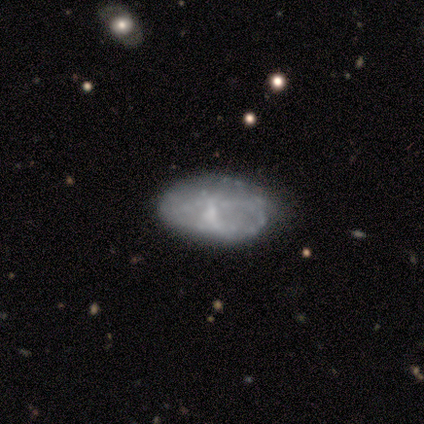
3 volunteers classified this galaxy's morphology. A featured or disk galaxy (67%) with no bar (100%), no spiral arms (100%) and a small central bulge (50%, tied with none).

Vote fractions:
- Smooth or featured? featured or disk: 67% / smooth: 33% / star or artifact: 0%
- Edge-on disk? no: 100% / yes: 0%
- Bar? no: 100% / strong: 0% / weak: 0%
- Spiral arms? no: 100% / yes: 0%
- Bulge size? small: 50% (tied) / none: 50% (tied) / dominant: 0% / large: 0% / moderate: 0%
- Merging? minor disturbance: 67% / none: 33% / major disturbance: 0% / merger: 0%